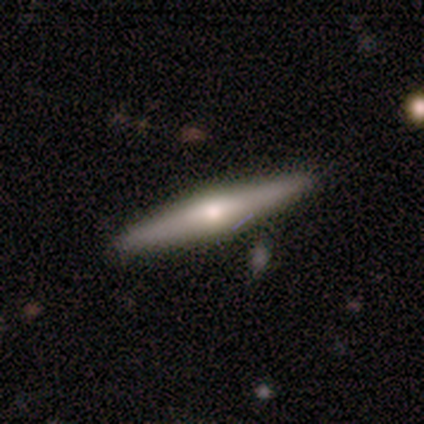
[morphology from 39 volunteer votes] smooth_or_featured: featured or disk (p=0.69) [alt: smooth p=0.28]
disk_edge_on: yes (p=0.96) [alt: no p=0.04]
edge_on_bulge: rounded (p=0.85) [alt: boxy p=0.08]
merging: none (p=0.87) [alt: minor disturbance p=0.05]